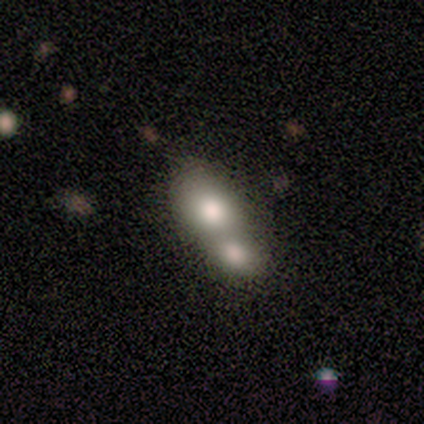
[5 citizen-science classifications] Smooth or featured? 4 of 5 (80%) said smooth. How rounded? 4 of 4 (100%) said in between. Merging? 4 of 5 (80%) said merger.